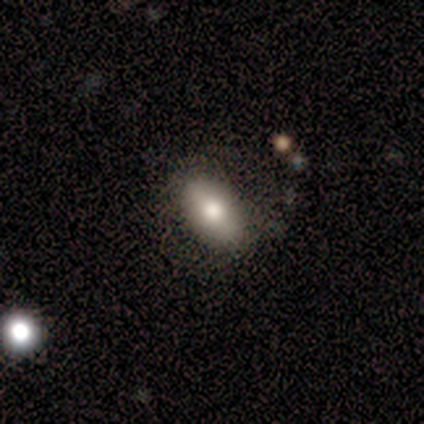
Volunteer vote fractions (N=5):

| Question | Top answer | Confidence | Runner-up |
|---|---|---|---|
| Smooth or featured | featured or disk | 60% | smooth (40%) |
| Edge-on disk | yes | 67% | no (33%) |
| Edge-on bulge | boxy | 50% | tied: rounded (50%) |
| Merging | none | 60% | minor disturbance (40%) |